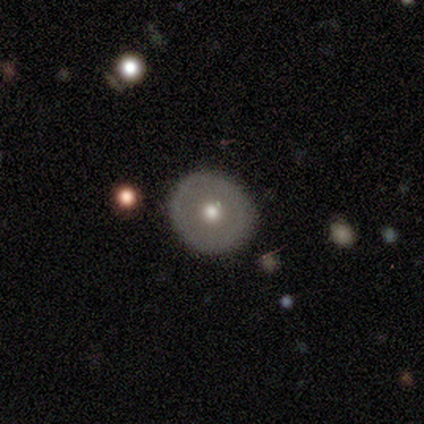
This appears to be a smooth galaxy with no disk features (67%) that is round (100%). Merging: none (83%).